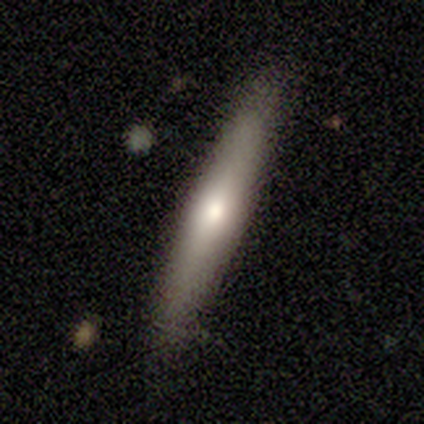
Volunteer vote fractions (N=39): This appears to be a smooth galaxy with no disk features (64%) that is cigar-shaped (88%). Merging: none (79%).